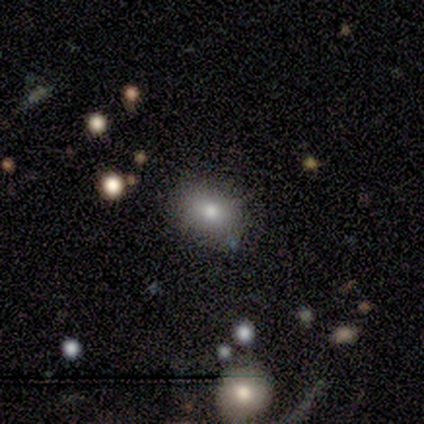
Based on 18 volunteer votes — This is clearly a smooth galaxy (89%). How rounded: clearly in between (81%). Merging: clearly none (82%).